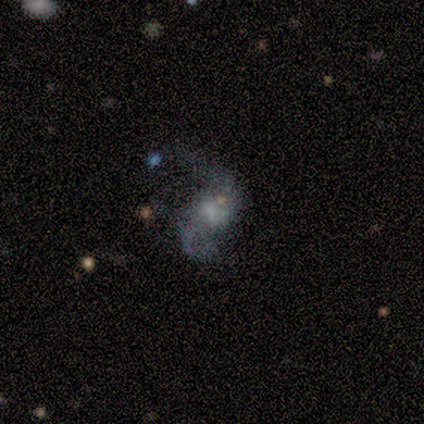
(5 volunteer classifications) Smooth or featured?
  - featured or disk: 80% *
  - smooth: 20%
  - star or artifact: 0%
Edge-on disk?
  - no: 100% *
  - yes: 0%
Bar?
  - no: 75% *
  - strong: 25%
  - weak: 0%
Spiral arms?
  - yes: 50% * (tied)
  - no: 50% * (tied)
Spiral winding?
  - loose: 100% *
  - tight: 0%
  - medium: 0%
Spiral arm count?
  - 2: 100% *
  - 1: 0%
  - 3: 0%
  - 4: 0%
  - more than 4: 0%
  - can't tell: 0%
Bulge size?
  - none: 50% *
  - large: 25%
  - small: 25%
  - dominant: 0%
  - moderate: 0%
Merging?
  - none: 60% *
  - minor disturbance: 20%
  - major disturbance: 20%
  - merger: 0%